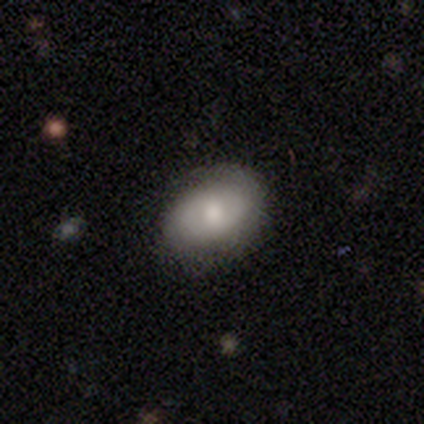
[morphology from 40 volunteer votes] A smooth galaxy with no disk features (60%) that is in between round and cigar-shaped (88%). Merging: none (69%).